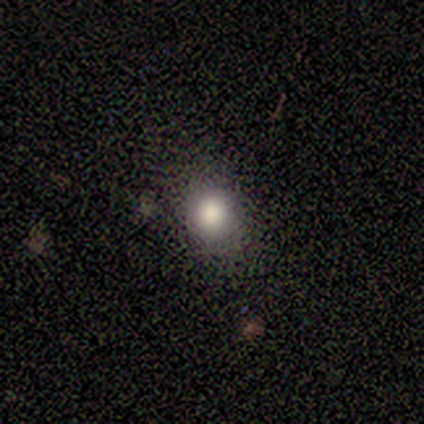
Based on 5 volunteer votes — Volunteers were most divided on "how rounded" (2-way tie): round: 50%, in between: 50%, cigar-shaped: 0%. More confident: smooth or featured — smooth (80%); merging — none (80%).